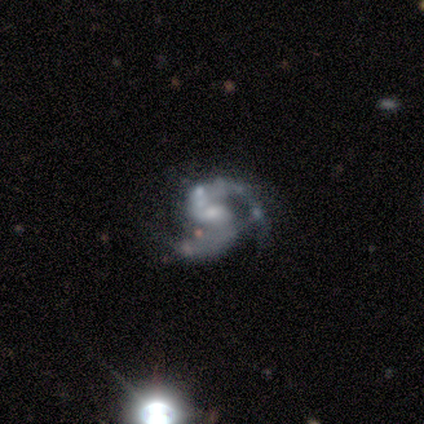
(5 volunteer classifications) featured or disk 100%, smooth 0%, star or artifact 0%. Down the decision tree: edge-on disk — no (100%); bar — weak (100%); spiral arms — yes (100%); spiral arm count — 2 (100%); spiral winding — medium (80%); bulge size — small (60%); merging — none (60%).